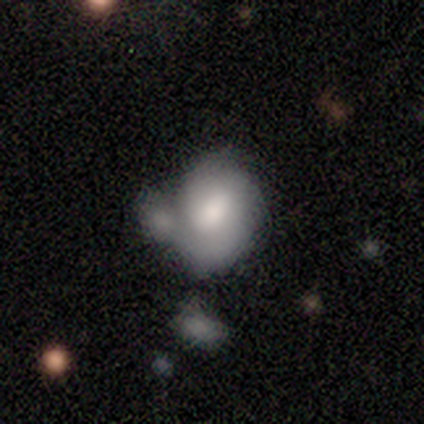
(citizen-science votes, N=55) Volunteers were most divided on "merging": merger: 42%, minor disturbance: 30%, major disturbance: 15%, none: 13%. More confident: how rounded — in between (64%); smooth or featured — smooth (60%).